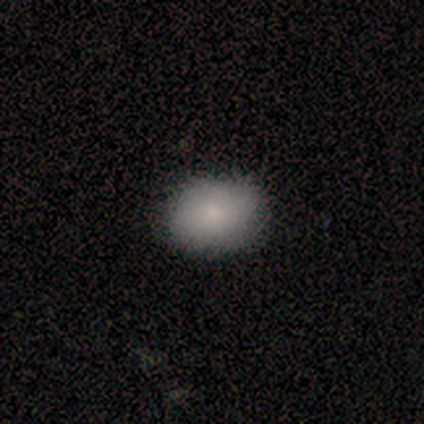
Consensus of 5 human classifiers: smooth 100%, featured or disk 0%, star or artifact 0%. Down the decision tree: how rounded — round (80%); merging — none (100%).